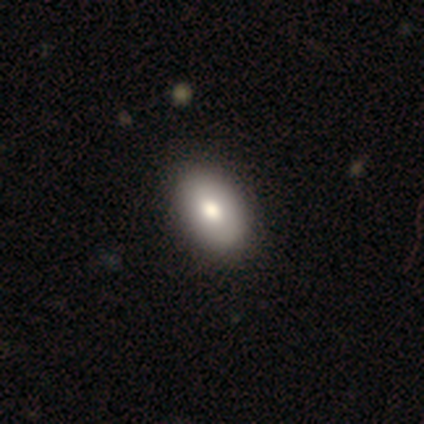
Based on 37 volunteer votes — Smooth or featured?
  - smooth: 78% *
  - featured or disk: 16%
  - star or artifact: 5%
How rounded?
  - in between: 100% *
  - round: 0%
  - cigar-shaped: 0%
Merging?
  - none: 57% *
  - minor disturbance: 6%
  - major disturbance: 3%
  - merger: 0%